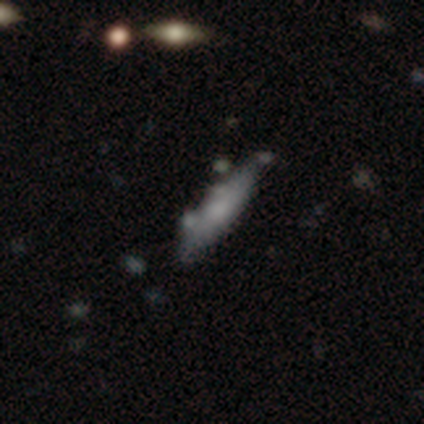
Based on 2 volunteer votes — Smooth or featured: smooth — 50% (tied with featured or disk — 50%)
How rounded: in between — 100%
Merging: none — 50% (tied with minor disturbance — 50%)